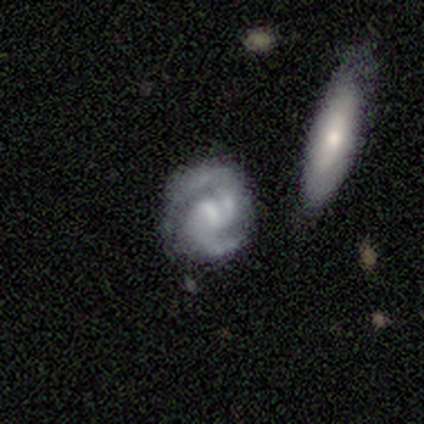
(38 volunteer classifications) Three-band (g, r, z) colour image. It shows a featured or disk galaxy (87%) with a weak bar (64%), 2 (91%) medium (56%) spiral arms (97%) and a small central bulge (42%). Merging: none (61%).